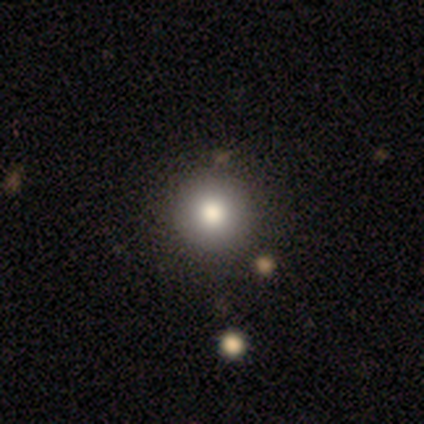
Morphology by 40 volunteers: A smooth galaxy with no disk features (85%) that is round (97%).

Vote fractions:
- Smooth or featured? smooth: 85% / featured or disk: 8% / star or artifact: 8%
- How rounded? round: 97% / cigar-shaped: 3% / in between: 0%
- Merging? none: 89% / major disturbance: 5% / minor disturbance: 3% / merger: 3%